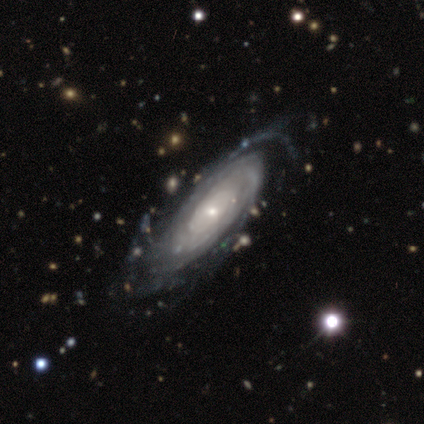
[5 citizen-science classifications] Overall: featured or disk (100%). Edge-on disk: no (100%). Bar: no (80%). Spiral arms: yes (100%). Spiral arm count: can't tell (40%; 2 20%). Spiral winding: tight (80%). Bulge size: small (60%; moderate 40%). Merging: none (60%; minor disturbance 40%).